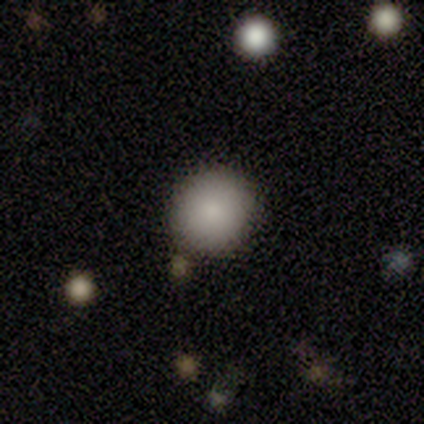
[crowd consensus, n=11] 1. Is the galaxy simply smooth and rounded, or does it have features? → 82% smooth, 9% featured or disk, 9% star or artifact.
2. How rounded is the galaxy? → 78% round, 22% in between, 0% cigar-shaped.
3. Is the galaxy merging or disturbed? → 80% none, 20% minor disturbance, 0% major disturbance, 0% merger.